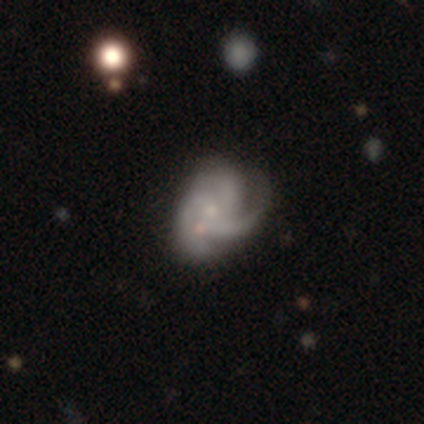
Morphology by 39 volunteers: This appears to be a featured or disk galaxy (79%) with no bar (81%), 3 (61%) medium (52%) spiral arms (100%) and a small central bulge (65%). Merging: none (43%).